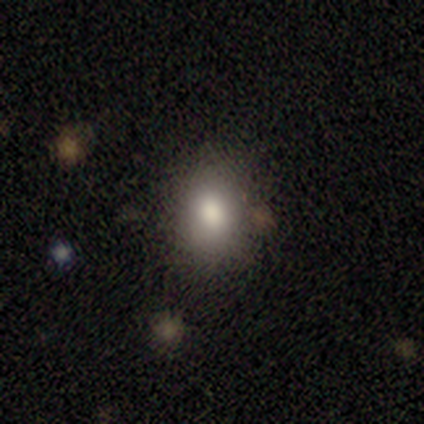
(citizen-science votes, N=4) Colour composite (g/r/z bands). It shows a smooth galaxy with no disk features (100%) that is in between round and cigar-shaped (75%). Merging: none (75%).